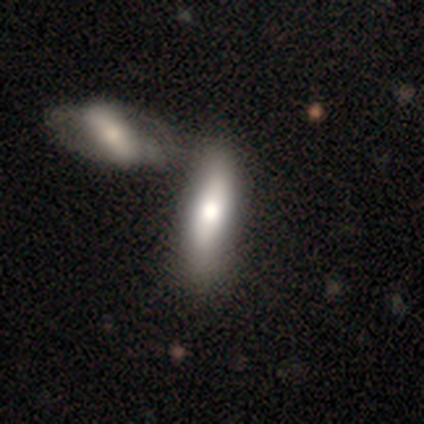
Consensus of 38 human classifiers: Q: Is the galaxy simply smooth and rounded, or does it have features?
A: smooth — 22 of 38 (58%).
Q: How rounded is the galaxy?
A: cigar-shaped — 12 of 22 (55%).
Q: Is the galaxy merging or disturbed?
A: merger — 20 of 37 (54%).